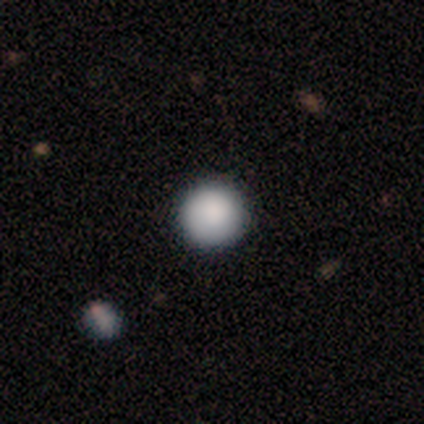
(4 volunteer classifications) Morphology: type=smooth (100%); roundness=round (100%); merging=none (100%).